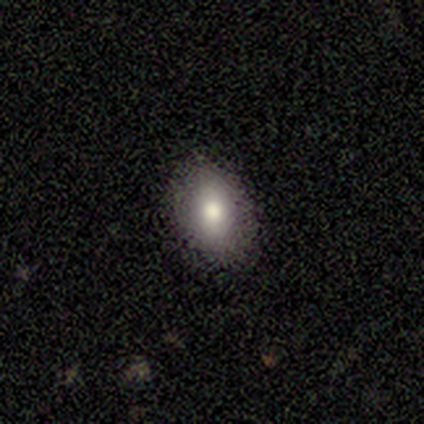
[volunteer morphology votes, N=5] A smooth galaxy with no disk features (60%) that is in between round and cigar-shaped (100%). Merging: none (100%).